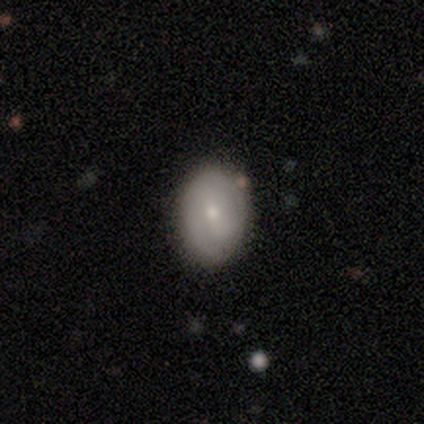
Morphology: type=featured or disk (60%); edge-on=no (100%); bar=no (67%); spiral arms=no (67%); bulge=moderate (100%); merging=none (80%).